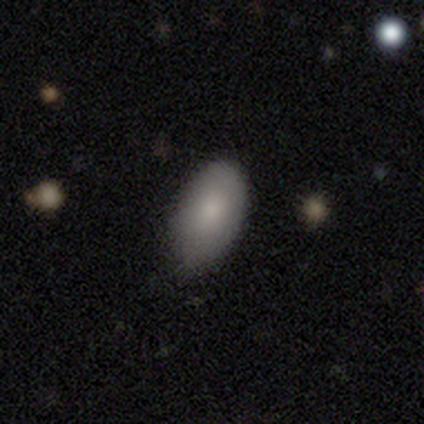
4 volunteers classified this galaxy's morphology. type=smooth (100%); roundness=in between (100%); merging=none (75%).